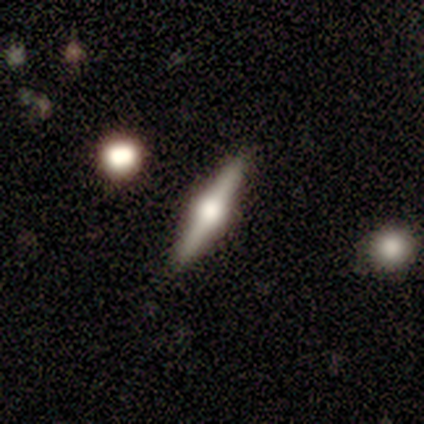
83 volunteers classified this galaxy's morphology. This is likely a featured or disk galaxy (77%). It is clearly viewed edge-on (98%). Edge-on bulge: clearly rounded (92%). Merging: clearly none (94%).